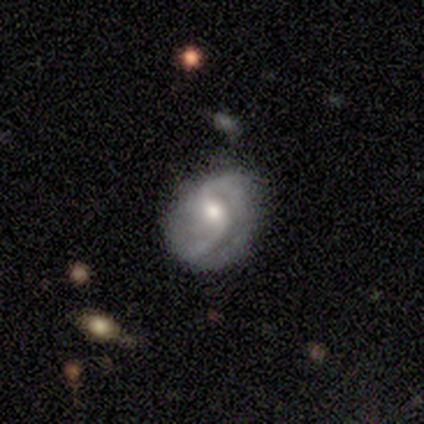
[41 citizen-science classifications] smooth_or_featured: featured or disk (p=0.78) [alt: smooth p=0.17]
disk_edge_on: no (p=1.00)
bar: weak (p=0.62) [alt: no p=0.34]
has_spiral_arms: yes (p=0.97) [alt: no p=0.03]
spiral_winding: medium (p=0.45) [alt: loose p=0.32]
spiral_arm_count: 2 (p=0.71) [alt: 1 p=0.16]
bulge_size: moderate (p=0.75) [alt: small p=0.16]
merging: minor disturbance (p=0.38) [alt: none p=0.36]